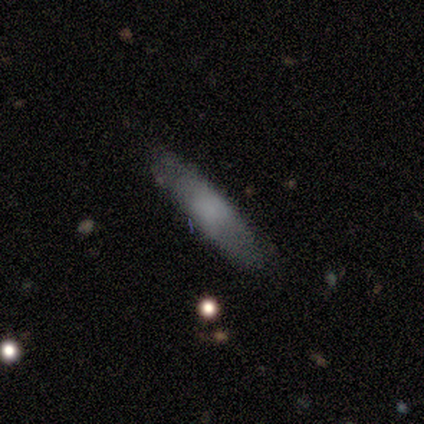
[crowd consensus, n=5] smooth-or-featured: smooth: 80% | featured or disk: 20% | star or artifact: 0%
  how-rounded: cigar-shaped: 75% | in between: 25% | round: 0%
  merging: none: 100% | minor disturbance: 0% | major disturbance: 0% | merger: 0%